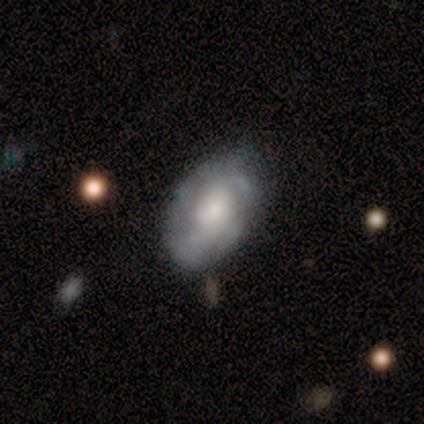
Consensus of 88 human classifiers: Morphology: type=featured or disk (74%); edge-on=no (95%); bar=no (77%); spiral arms=yes (76%); winding=tight (60%); arm count=can't tell (64%); bulge=moderate (47%); merging=none (75%).